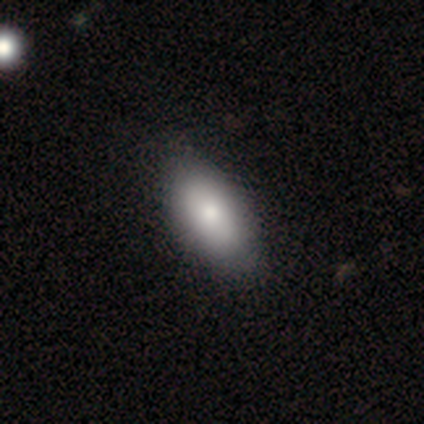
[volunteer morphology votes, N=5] smooth 60%, featured or disk 20%, star or artifact 20%. Down the decision tree: how rounded — in between (100%); merging — none (100%).